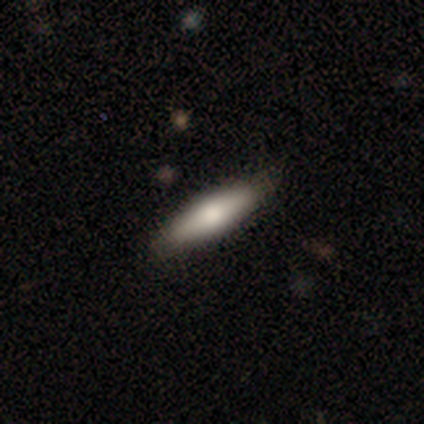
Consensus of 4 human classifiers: Overall: smooth (100%). How rounded: cigar-shaped (75%). Merging: none (75%).